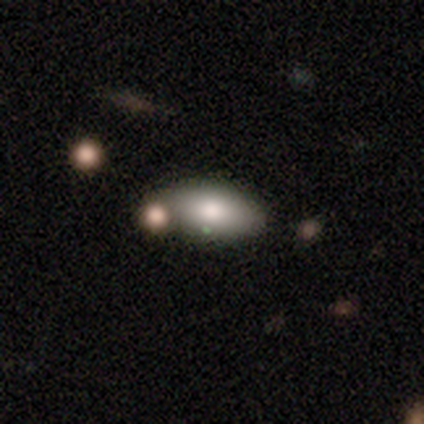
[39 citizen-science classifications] This appears to be a smooth galaxy with no disk features (82%) that is in between round and cigar-shaped (84%). Merging: none (54%).